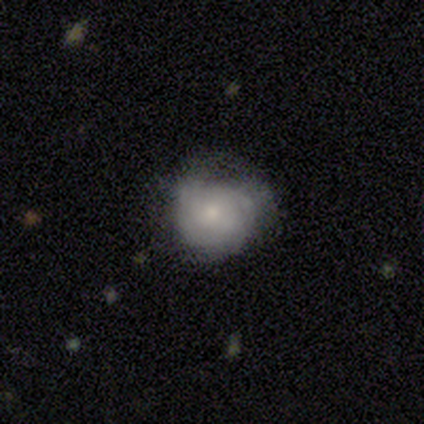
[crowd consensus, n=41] Overall: featured or disk (54%; smooth 44%). Edge-on disk: no (100%). Bar: no (86%). Spiral arms: yes (73%). Spiral arm count: can't tell (62%). Spiral winding: tight (81%). Bulge size: small (45%; moderate 32%). Merging: minor disturbance (48%; none 42%).